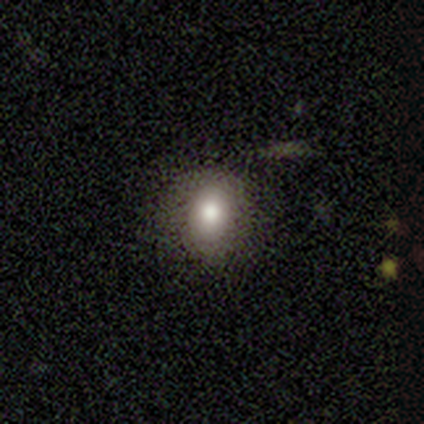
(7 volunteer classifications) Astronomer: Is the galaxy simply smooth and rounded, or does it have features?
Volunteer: smooth — 86%.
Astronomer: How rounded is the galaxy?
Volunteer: in between — 83%.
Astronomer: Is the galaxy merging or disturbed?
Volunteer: none — 50%, tied with minor disturbance at 50%.